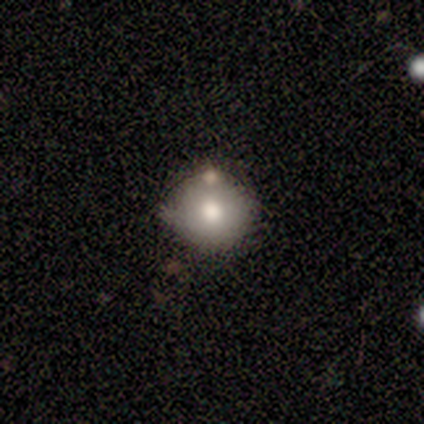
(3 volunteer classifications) Morphology: type=smooth (33%, tied with featured or disk and star or artifact); roundness=round (100%); merging=none (50%, tied with merger).